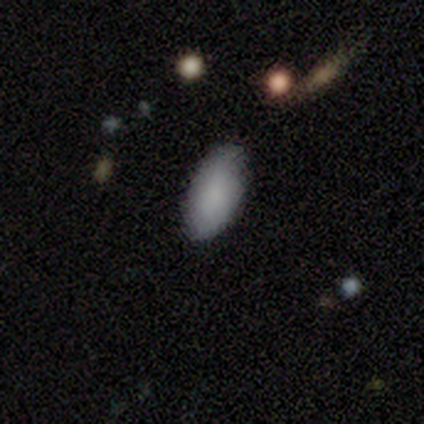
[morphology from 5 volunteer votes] A smooth galaxy with no disk features (80%) that is in between round and cigar-shaped (100%). Merging: none (40%).